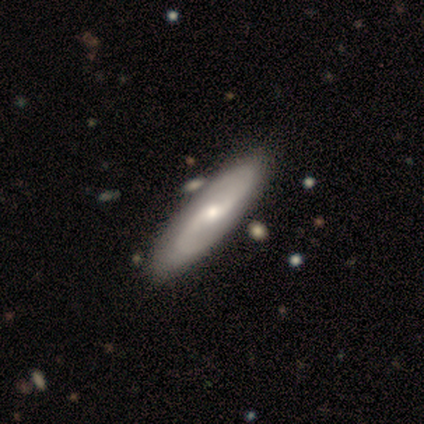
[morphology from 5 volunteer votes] Smooth or featured? featured or disk (100%)
Edge-on disk? no (100%)
Bar? no (60%)
Spiral arms? yes (100%)
Spiral winding? loose (80%)
Spiral arm count? 2 (80%)
Bulge size? small (60%)
Merging? none (80%)